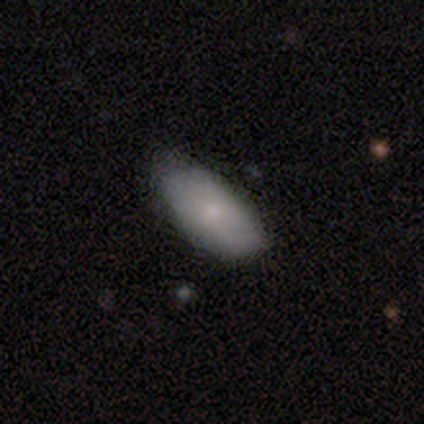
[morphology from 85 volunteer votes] Overall: smooth (69%). How rounded: in between (86%). Merging: none (70%).